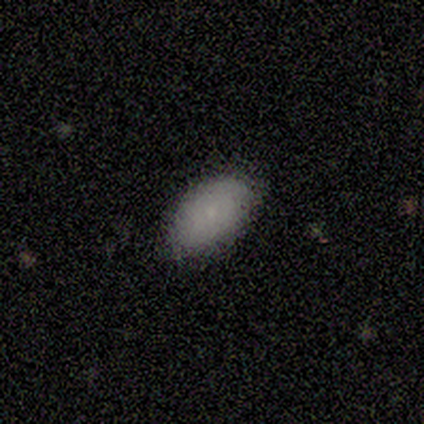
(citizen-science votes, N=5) Smooth or featured?
  - smooth: 80% *
  - star or artifact: 20%
  - featured or disk: 0%
How rounded?
  - in between: 100% *
  - round: 0%
  - cigar-shaped: 0%
Merging?
  - none: 75% *
  - minor disturbance: 25%
  - major disturbance: 0%
  - merger: 0%